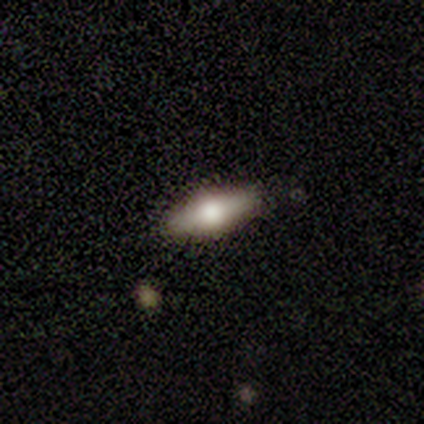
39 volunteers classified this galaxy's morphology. Q: Smooth or featured?
A: smooth (49%); runner-up: featured or disk (38%)
Q: How rounded?
A: in between (74%); runner-up: cigar-shaped (26%)
Q: Merging?
A: none (88%); runner-up: minor disturbance (12%)